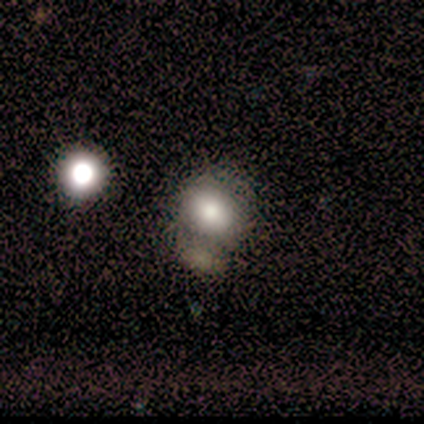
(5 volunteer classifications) Smooth or featured? smooth (60%)
How rounded? round (100%)
Merging? none (75%)